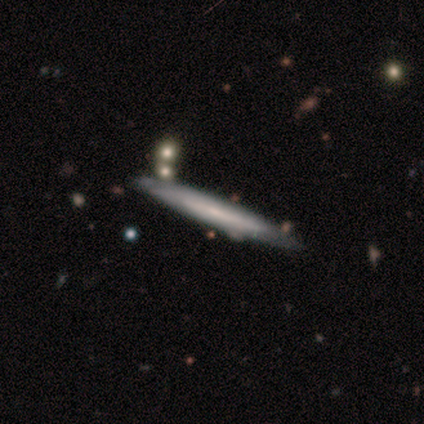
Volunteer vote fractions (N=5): Q: Smooth or featured?
A: smooth (60%); runner-up: featured or disk (40%)
Q: How rounded?
A: cigar-shaped (100%)
Q: Merging?
A: none (100%)